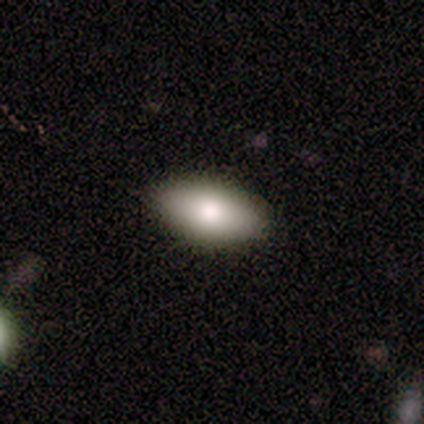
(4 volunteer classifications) Smooth or featured? smooth (75%)
How rounded? in between (100%)
Merging? none (75%)